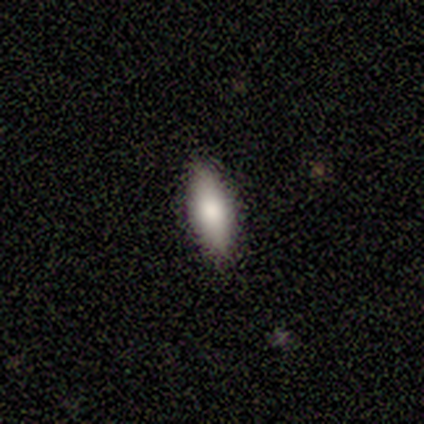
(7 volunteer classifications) A smooth galaxy with no disk features (86%) that is in between round and cigar-shaped (83%).

Vote fractions:
- Smooth or featured? smooth: 86% / featured or disk: 14% / star or artifact: 0%
- How rounded? in between: 83% / cigar-shaped: 17% / round: 0%
- Merging? none: 86% / minor disturbance: 14% / major disturbance: 0% / merger: 0%